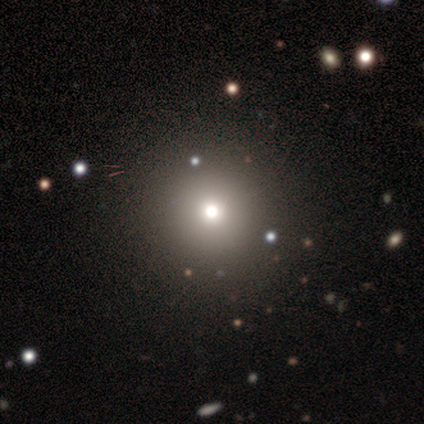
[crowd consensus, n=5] This appears to be a smooth galaxy with no disk features (80%) that is round (100%). Merging: none (100%).